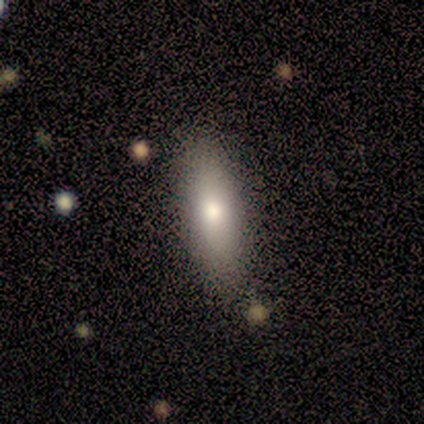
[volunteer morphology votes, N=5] Overall: smooth (80%). How rounded: in between (50%, tied with cigar-shaped). Merging: none (100%).